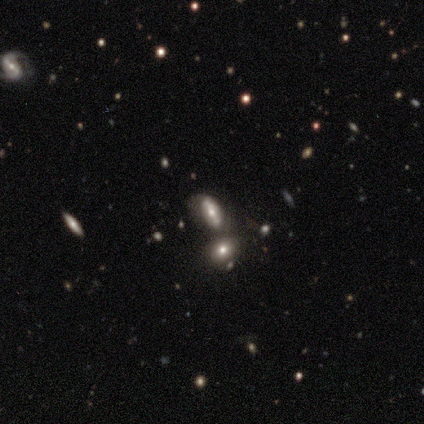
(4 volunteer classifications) Volunteers were most divided on "smooth or featured" (2-way tie): smooth: 50%, featured or disk: 50%, star or artifact: 0%. More confident: how rounded — in between (100%); merging — merger (75%).